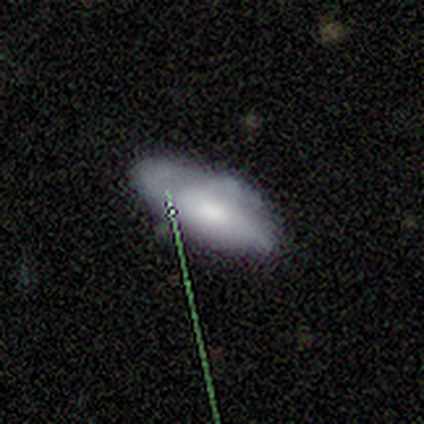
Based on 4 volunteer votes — Morphology: type=smooth (50%, tied with star or artifact); roundness=in between (50%, tied with cigar-shaped); merging=minor disturbance (50%, tied with merger).